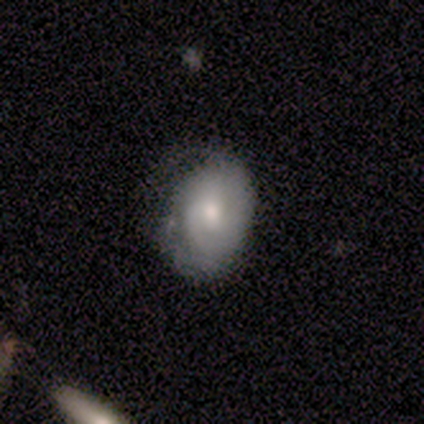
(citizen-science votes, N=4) Q: Smooth or featured?
A: featured or disk (100%)
Q: Edge-on disk?
A: no (100%)
Q: Bar?
A: no (100%)
Q: Spiral arms?
A: yes (50%); tied with: no (50%)
Q: Spiral winding?
A: tight (50%); tied with: medium (50%)
Q: Spiral arm count?
A: 3 (50%); tied with: can't tell (50%)
Q: Bulge size?
A: moderate (50%); tied with: small (50%)
Q: Merging?
A: none (50%); tied with: minor disturbance (50%)